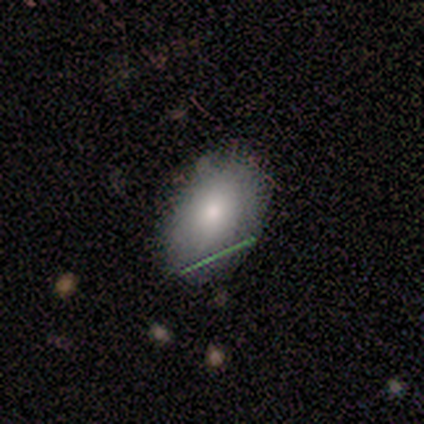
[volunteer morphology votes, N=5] Smooth or featured? 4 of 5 (80%) said smooth. How rounded? 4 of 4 (100%) said in between. Merging? 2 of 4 (50%, tied with minor disturbance) said none.